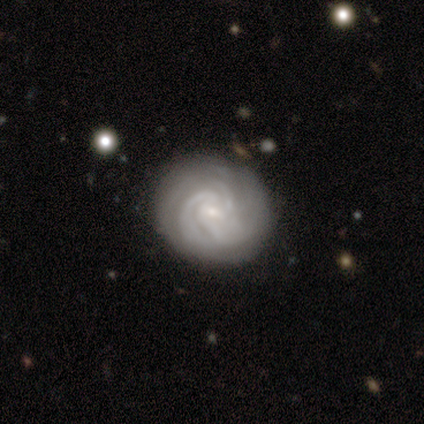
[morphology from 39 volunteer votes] Q: Smooth or featured?
A: featured or disk (97%); runner-up: smooth (3%)
Q: Edge-on disk?
A: no (95%); runner-up: yes (5%)
Q: Bar?
A: no (56%); runner-up: weak (31%)
Q: Spiral arms?
A: yes (100%)
Q: Spiral winding?
A: tight (83%); runner-up: medium (17%)
Q: Spiral arm count?
A: can't tell (42%); runner-up: 3 (36%)
Q: Bulge size?
A: small (86%); runner-up: moderate (14%)
Q: Merging?
A: none (85%); runner-up: minor disturbance (13%)